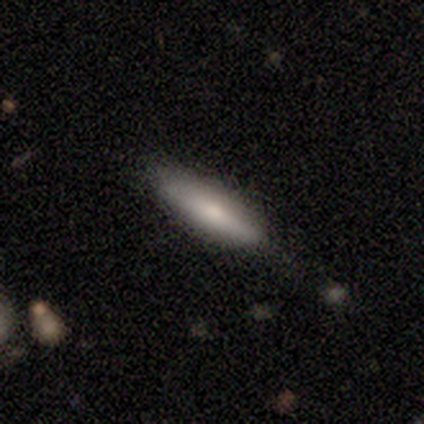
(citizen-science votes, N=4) Overall: smooth (50%; featured or disk 25%). How rounded: cigar-shaped (100%). Merging: none (100%).